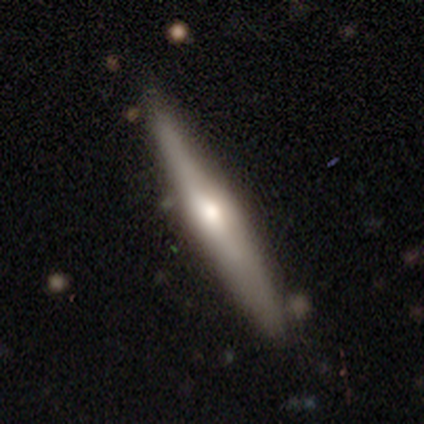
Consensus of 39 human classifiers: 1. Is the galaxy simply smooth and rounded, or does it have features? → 54% featured or disk, 46% smooth, 0% star or artifact.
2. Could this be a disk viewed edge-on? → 100% yes, 0% no.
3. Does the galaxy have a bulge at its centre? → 76% rounded, 14% none, 10% boxy.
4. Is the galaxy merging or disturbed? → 74% none, 26% minor disturbance, 0% major disturbance, 0% merger.